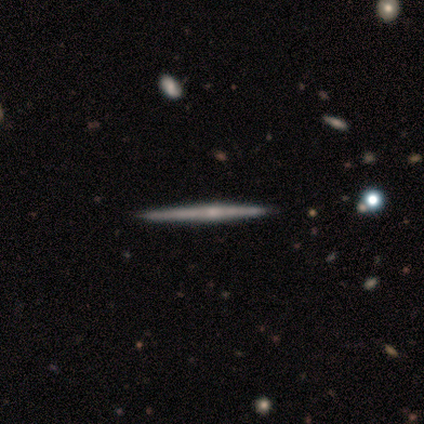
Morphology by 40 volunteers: type=featured or disk (62%); edge-on=yes (100%); edge-on bulge=rounded (52%); merging=none (45%).